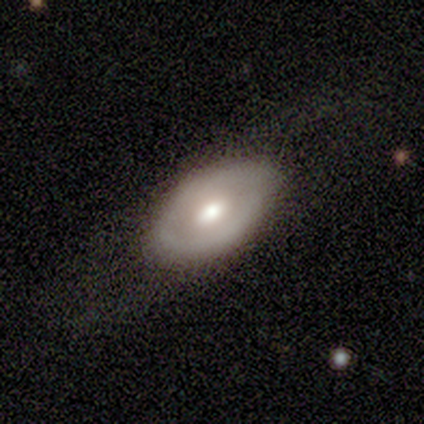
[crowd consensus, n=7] Smooth or featured? smooth (43%, tied with featured or disk)
How rounded? in between (67%)
Merging? none (67%)